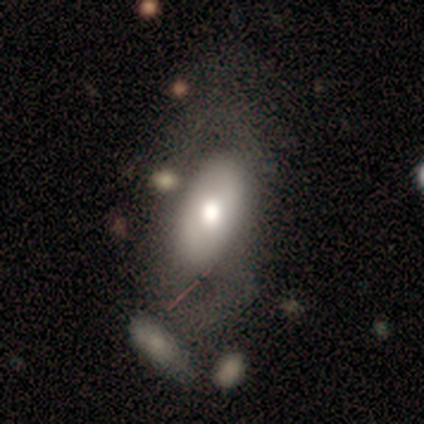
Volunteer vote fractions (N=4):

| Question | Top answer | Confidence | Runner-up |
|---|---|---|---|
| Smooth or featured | featured or disk | 75% | smooth (25%) |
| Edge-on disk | no | 67% | yes (33%) |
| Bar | no | 100% | — |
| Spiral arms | no | 100% | — |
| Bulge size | large | 50% | tied: moderate (50%) |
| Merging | none | 100% | — |